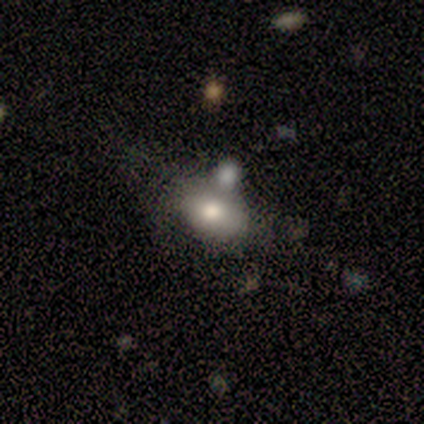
Smooth or featured?
  - featured or disk: 60% *
  - smooth: 40%
  - star or artifact: 0%
Edge-on disk?
  - no: 67% *
  - yes: 33%
Bar?
  - weak: 50% * (tied)
  - no: 50% * (tied)
  - strong: 0%
Spiral arms?
  - no: 100% *
  - yes: 0%
Bulge size?
  - large: 50% * (tied)
  - moderate: 50% * (tied)
  - dominant: 0%
  - small: 0%
  - none: 0%
Merging?
  - minor disturbance: 80% *
  - none: 20%
  - major disturbance: 0%
  - merger: 0%